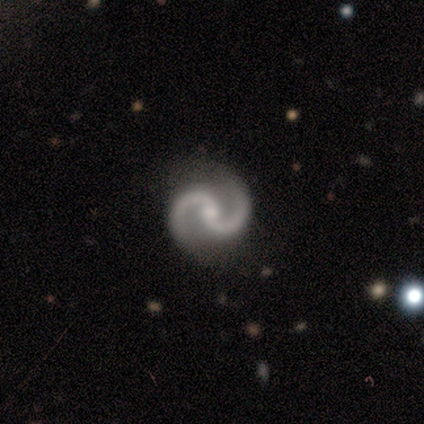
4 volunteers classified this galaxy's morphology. Volunteers were most divided on "bar": weak: 67%, no: 33%, strong: 0%. More confident: smooth or featured — featured or disk (100%); spiral arms — yes (100%); spiral arm count — 2 (100%); bulge size — small (100%); merging — none (100%); edge-on disk — no (75%); spiral winding — medium (67%).